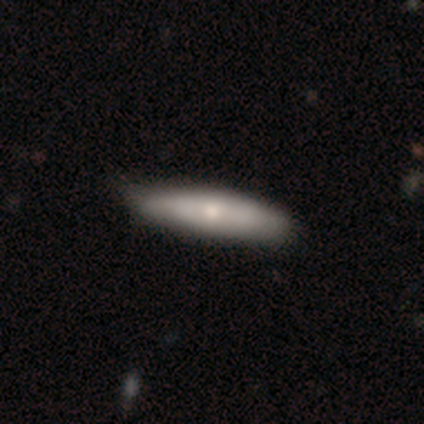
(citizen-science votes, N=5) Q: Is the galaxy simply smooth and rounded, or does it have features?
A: featured or disk — 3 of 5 (60%).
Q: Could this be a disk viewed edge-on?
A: no — 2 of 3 (67%).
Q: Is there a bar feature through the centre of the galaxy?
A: weak — 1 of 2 (50%, tied with no).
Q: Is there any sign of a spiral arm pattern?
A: yes — 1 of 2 (50%, tied with no).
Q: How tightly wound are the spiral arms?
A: medium — 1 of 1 (100%).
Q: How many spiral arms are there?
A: can't tell — 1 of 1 (100%).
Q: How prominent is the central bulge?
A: moderate — 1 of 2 (50%, tied with small).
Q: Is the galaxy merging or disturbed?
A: none — 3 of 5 (60%).